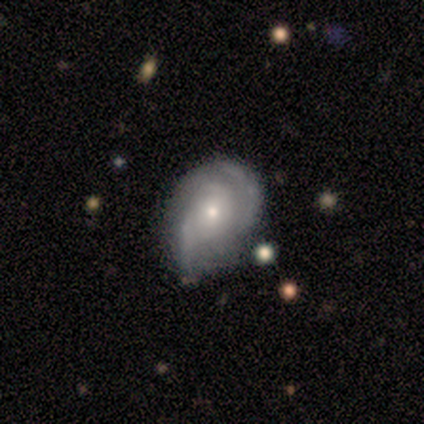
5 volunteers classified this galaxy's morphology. A featured or disk galaxy (80%) with a weak bar (50%), 2 (50%) tight (50%) spiral arms (100%) and a small central bulge (100%). Merging: none (40%, tied with minor disturbance).